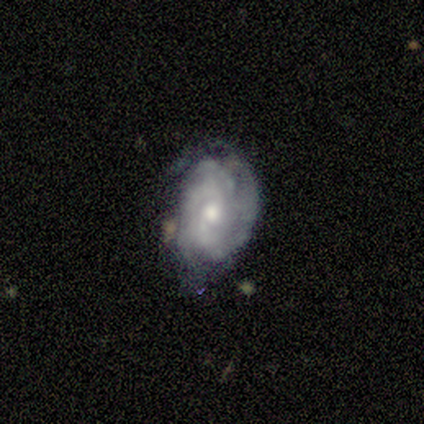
Morphology: type=featured or disk (60%); edge-on=no (100%); bar=weak (67%); spiral arms=yes (100%); winding=medium (67%); arm count=3 (33%, tied with 4 and can't tell); bulge=large (33%, tied with moderate and small); merging=minor disturbance (60%).